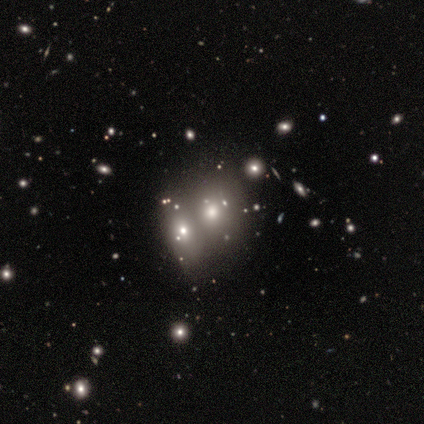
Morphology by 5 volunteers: This appears to be a smooth galaxy with no disk features (80%) that is round (75%). Merging: merger (100%).